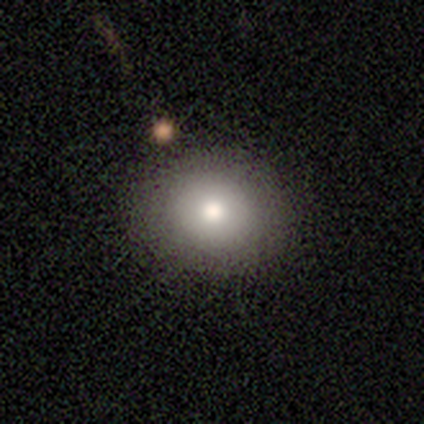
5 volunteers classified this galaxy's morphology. Smooth or featured? 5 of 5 (100%) said smooth. How rounded? 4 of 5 (80%) said round. Merging? 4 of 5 (80%) said none.